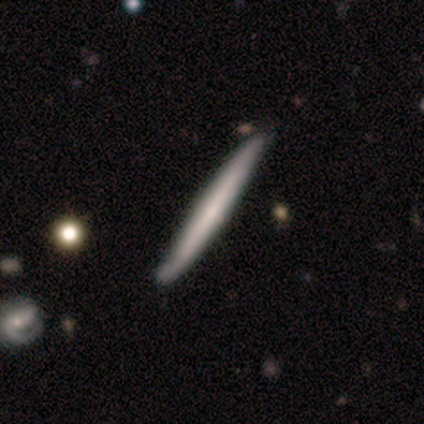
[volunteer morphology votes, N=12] smooth_or_featured: featured or disk (p=0.50) [alt: smooth p=0.42]
disk_edge_on: yes (p=1.00)
edge_on_bulge: none (p=0.50) [alt: boxy p=0.33]
merging: none (p=0.73) [alt: minor disturbance p=0.27]